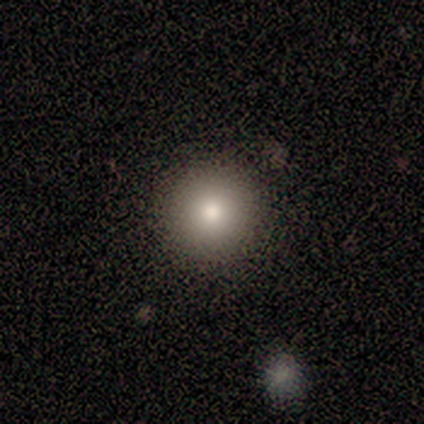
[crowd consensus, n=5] Q: Smooth or featured?
A: smooth (100%)
Q: How rounded?
A: round (100%)
Q: Merging?
A: none (60%); runner-up: minor disturbance (40%)